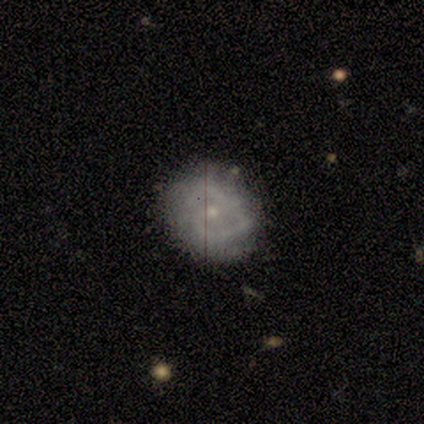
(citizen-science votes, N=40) This is clearly a featured or disk galaxy (82%). It is clearly not viewed edge-on (97%). Bar: marginally weak (44%, tied with no). Spiral arm pattern: likely yes (78%). Spiral arm count: likely 2 (76%). Spiral winding: possibly tight (48%). Central bulge: likely small (75%). Merging: clearly none (82%).